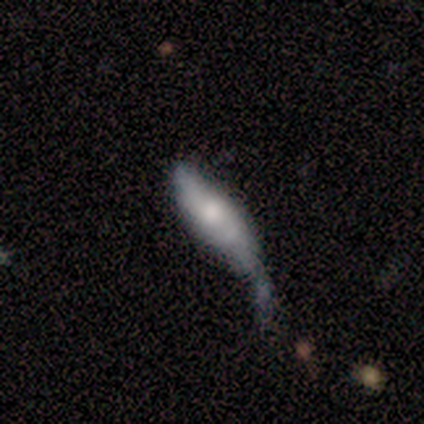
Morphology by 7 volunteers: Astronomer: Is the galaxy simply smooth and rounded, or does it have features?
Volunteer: smooth — 57% (runner-up: featured or disk, 43%).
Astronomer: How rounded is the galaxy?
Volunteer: in between — 50%, tied with cigar-shaped at 50%.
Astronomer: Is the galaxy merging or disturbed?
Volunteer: minor disturbance — 43%, tied with major disturbance at 43%.